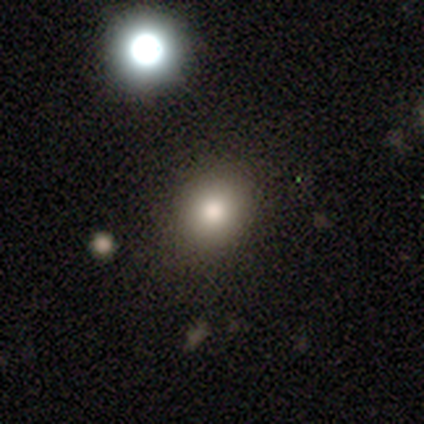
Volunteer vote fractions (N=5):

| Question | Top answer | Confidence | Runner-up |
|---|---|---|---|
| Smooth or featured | smooth | 60% | star or artifact (40%) |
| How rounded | round | 100% | — |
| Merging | none | 100% | — |